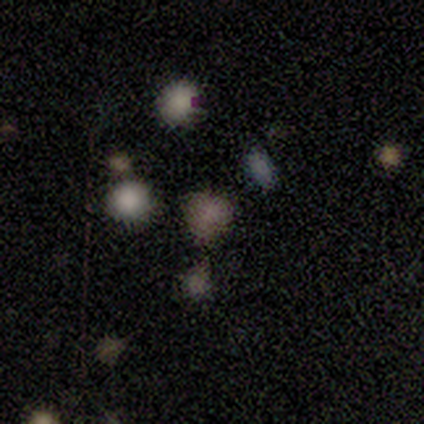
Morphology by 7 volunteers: Smooth or featured? 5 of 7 (71%) said smooth. How rounded? 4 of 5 (80%) said round. Merging? 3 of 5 (60%) said none.